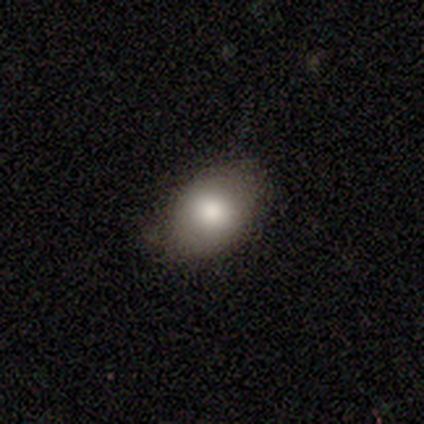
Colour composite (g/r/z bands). It shows a smooth galaxy with no disk features (100%) that is in between round and cigar-shaped (80%). Merging: none (80%).